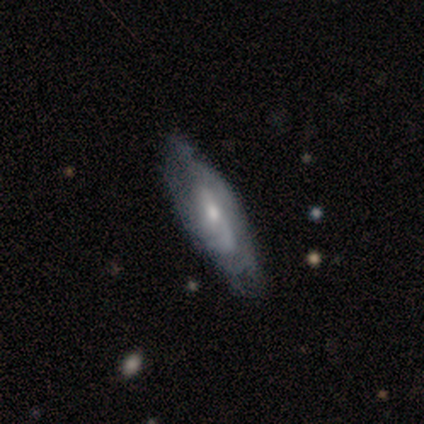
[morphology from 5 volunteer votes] featured or disk 100%, smooth 0%, star or artifact 0%. Down the decision tree: edge-on disk — no (100%); bar — weak (60%); spiral arms — yes (60%); spiral arm count — can't tell (67%); spiral winding — medium (67%); bulge size — moderate (60%); merging — none (60%).